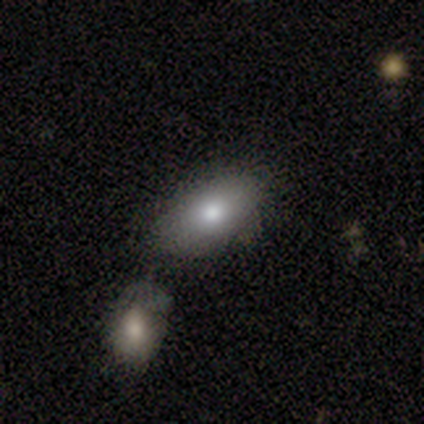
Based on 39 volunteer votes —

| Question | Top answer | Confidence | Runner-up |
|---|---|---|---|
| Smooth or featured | smooth | 74% | featured or disk (26%) |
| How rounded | in between | 97% | round (3%) |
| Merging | none | 38% | tied: merger (38%) |